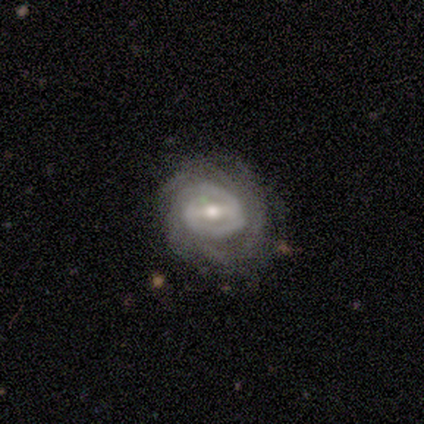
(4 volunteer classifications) A featured or disk galaxy (100%) with a strong bar (50%), 1 (50%, tied with can't tell) tight (75%) spiral arms (100%) and a moderate central bulge (50%, tied with small).

Vote fractions:
- Smooth or featured? featured or disk: 100% / smooth: 0% / star or artifact: 0%
- Edge-on disk? no: 100% / yes: 0%
- Bar? strong: 50% / weak: 25% / no: 25%
- Spiral arms? yes: 100% / no: 0%
- Spiral winding? tight: 75% / loose: 25% / medium: 0%
- Spiral arm count? 1: 50% (tied) / can't tell: 50% (tied) / 2: 0% / 3: 0% / 4: 0% / more than 4: 0%
- Bulge size? moderate: 50% (tied) / small: 50% (tied) / dominant: 0% / large: 0% / none: 0%
- Merging? none: 75% / minor disturbance: 25% / major disturbance: 0% / merger: 0%